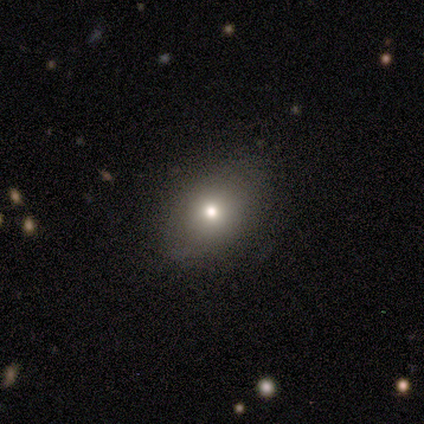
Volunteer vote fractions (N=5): Q: Smooth or featured?
A: smooth (60%); runner-up: star or artifact (40%)
Q: How rounded?
A: in between (67%); runner-up: round (33%)
Q: Merging?
A: none (67%); runner-up: minor disturbance (33%)